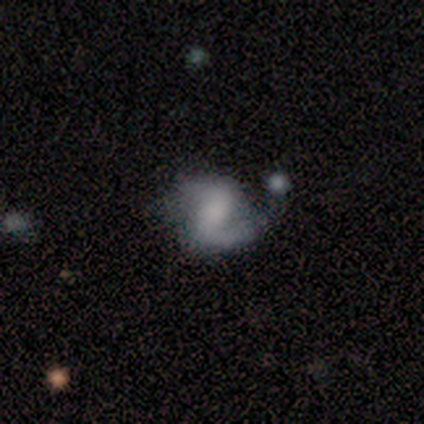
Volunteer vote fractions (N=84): smooth_or_featured: featured or disk (p=0.85) [alt: smooth p=0.10]
disk_edge_on: no (p=0.99) [alt: yes p=0.01]
bar: weak (p=0.40) [alt: strong p=0.34]
has_spiral_arms: yes (p=0.93) [alt: no p=0.07]
spiral_winding: loose (p=0.49) [alt: medium p=0.35]
spiral_arm_count: 2 (p=0.82) [alt: 1 p=0.12]
bulge_size: none (p=0.37) [alt: small p=0.26]
merging: none (p=0.51) [alt: minor disturbance p=0.25]